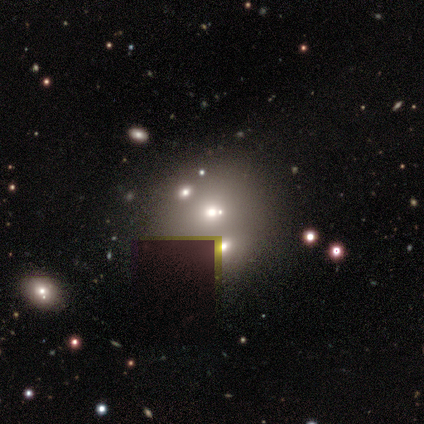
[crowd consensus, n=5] A star or artifact, not a galaxy (60%).

Vote fractions:
- Smooth or featured? star or artifact: 60% / smooth: 40% / featured or disk: 0%